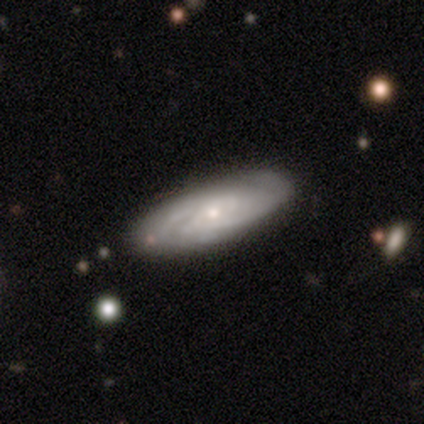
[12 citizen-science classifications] Smooth or featured? 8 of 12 (67%) said featured or disk. Edge-on disk? 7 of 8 (88%) said no. Bar? 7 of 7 (100%) said no. Spiral arms? 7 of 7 (100%) said yes. Spiral winding? 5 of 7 (71%) said tight. Spiral arm count? 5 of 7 (71%) said can't tell. Bulge size? 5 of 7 (71%) said small. Merging? 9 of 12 (75%) said none.